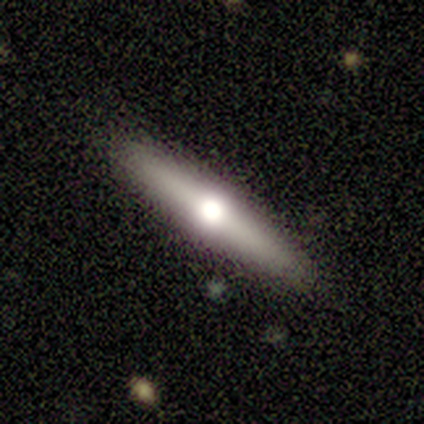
Smooth or featured? featured or disk (55%)
Edge-on disk? yes (100%)
Edge-on bulge? rounded (96%)
Merging? none (98%)